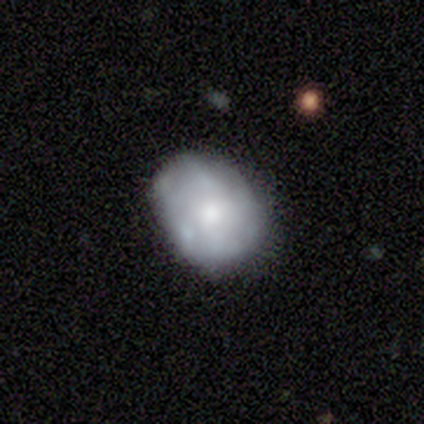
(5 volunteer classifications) Smooth or featured?
  - smooth: 60% *
  - featured or disk: 40%
  - star or artifact: 0%
How rounded?
  - in between: 100% *
  - round: 0%
  - cigar-shaped: 0%
Merging?
  - none: 60% *
  - minor disturbance: 20%
  - merger: 20%
  - major disturbance: 0%